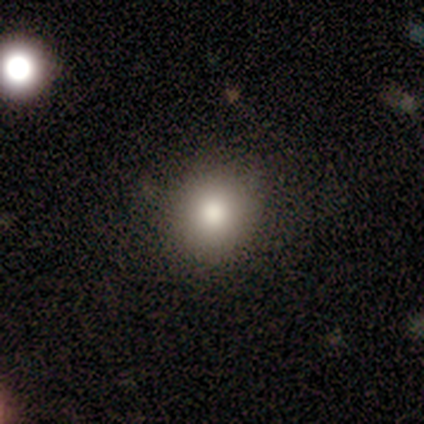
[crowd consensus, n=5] Smooth or featured?
  - smooth: 100% *
  - featured or disk: 0%
  - star or artifact: 0%
How rounded?
  - round: 80% *
  - in between: 20%
  - cigar-shaped: 0%
Merging?
  - none: 100% *
  - minor disturbance: 0%
  - major disturbance: 0%
  - merger: 0%